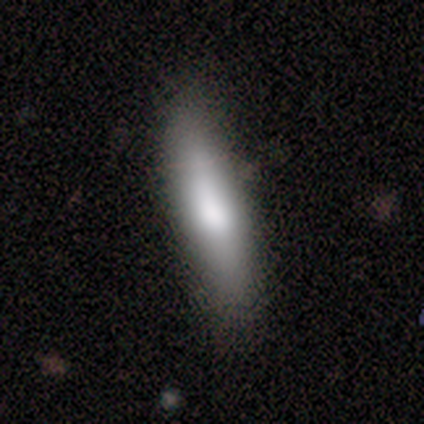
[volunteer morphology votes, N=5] This is clearly a smooth galaxy (80%). How rounded: possibly in between (50%, tied with cigar-shaped). Merging: clearly none (100%).